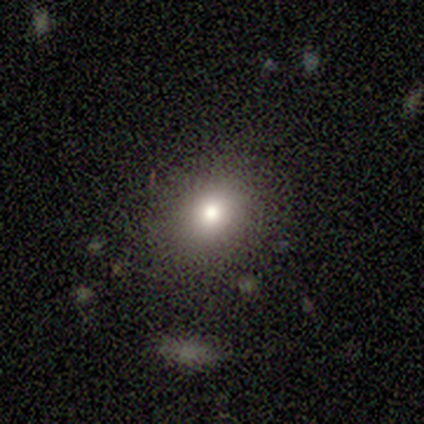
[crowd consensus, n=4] smooth_or_featured: smooth (p=1.00)
how_rounded: round (p=0.75) [alt: in between p=0.25]
merging: none (p=0.75) [alt: minor disturbance p=0.25]